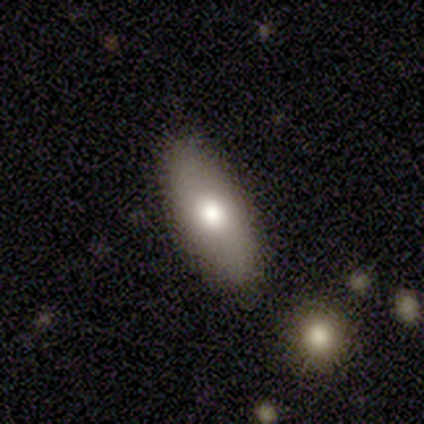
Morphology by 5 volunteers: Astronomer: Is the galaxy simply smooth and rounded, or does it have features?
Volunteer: smooth — 100%.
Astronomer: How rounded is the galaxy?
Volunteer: in between — 80%.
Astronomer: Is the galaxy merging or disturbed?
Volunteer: none — 80%.